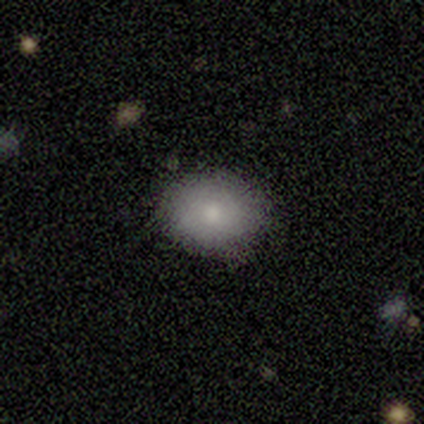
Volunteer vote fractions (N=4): Consensus on every question: smooth or featured — smooth (100%); how rounded — round (100%); merging — none (100%).